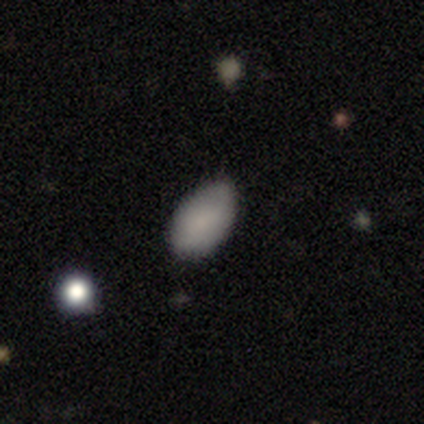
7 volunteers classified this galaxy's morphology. This is clearly a smooth galaxy (86%). How rounded: clearly in between (100%). Merging: possibly none (57%).